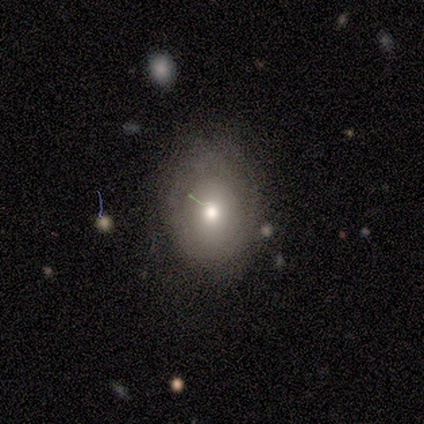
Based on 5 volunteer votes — A smooth galaxy with no disk features (60%) that is in between round and cigar-shaped (67%). Merging: none (67%).